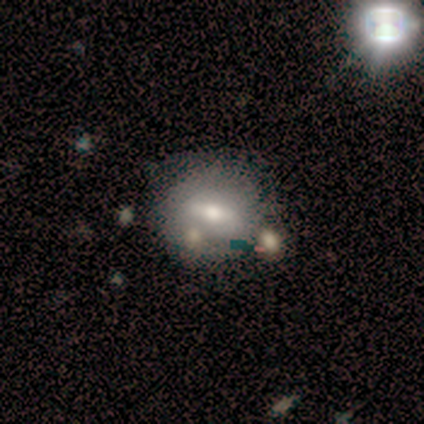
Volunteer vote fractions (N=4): Smooth or featured? smooth (50%, tied with featured or disk)
How rounded? in between (100%)
Merging? none (75%)